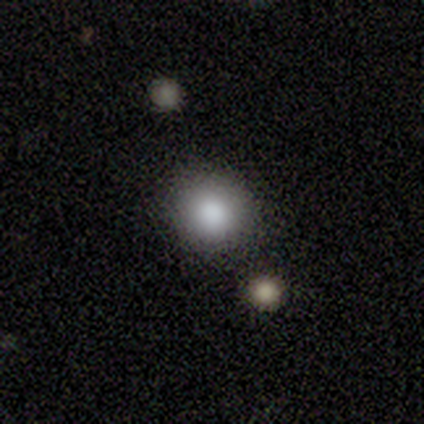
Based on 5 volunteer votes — Smooth or featured?
  - smooth: 60% *
  - featured or disk: 40%
  - star or artifact: 0%
How rounded?
  - round: 100% *
  - in between: 0%
  - cigar-shaped: 0%
Merging?
  - none: 60% *
  - minor disturbance: 40%
  - major disturbance: 0%
  - merger: 0%